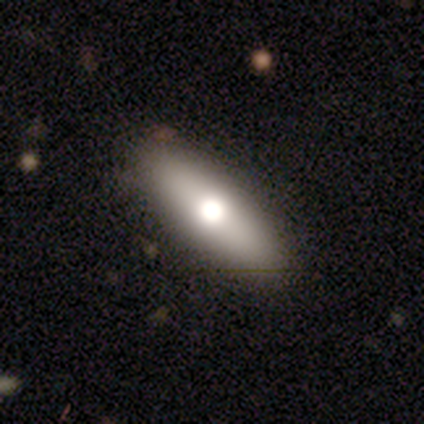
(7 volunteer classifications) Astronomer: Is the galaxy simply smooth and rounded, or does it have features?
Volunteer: smooth — 71%.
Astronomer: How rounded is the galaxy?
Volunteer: in between — 60% (runner-up: cigar-shaped, 40%).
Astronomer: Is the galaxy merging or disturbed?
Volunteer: none — 100%.